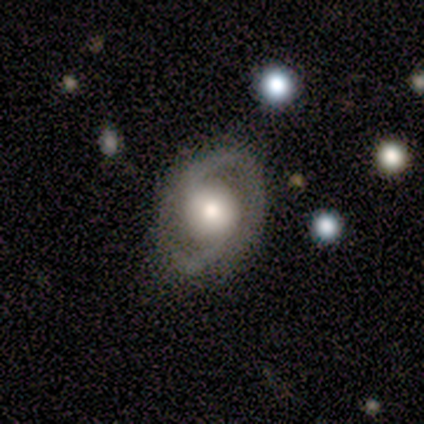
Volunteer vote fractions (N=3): Q: Smooth or featured?
A: featured or disk (100%)
Q: Edge-on disk?
A: no (100%)
Q: Bar?
A: weak (67%); runner-up: no (33%)
Q: Spiral arms?
A: yes (67%); runner-up: no (33%)
Q: Spiral winding?
A: medium (50%); tied with: loose (50%)
Q: Spiral arm count?
A: 2 (100%)
Q: Bulge size?
A: moderate (67%); runner-up: large (33%)
Q: Merging?
A: none (100%)